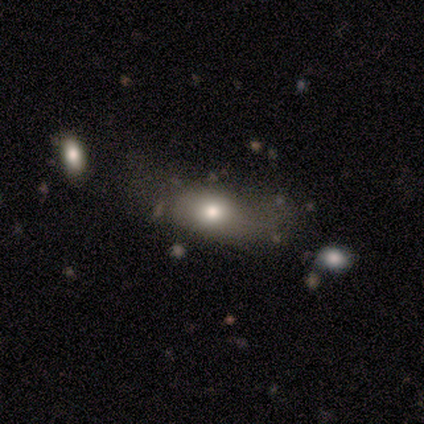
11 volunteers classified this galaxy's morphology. smooth 82%, featured or disk 9%, star or artifact 9%. Down the decision tree: how rounded — in between (56%); merging — none (90%).